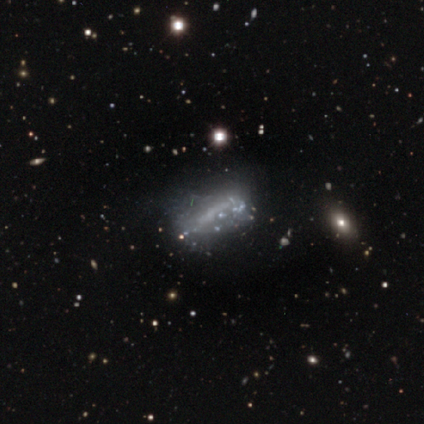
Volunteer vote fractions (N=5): Q: Smooth or featured?
A: featured or disk (60%); runner-up: smooth (20%)
Q: Edge-on disk?
A: no (100%)
Q: Bar?
A: no (67%); runner-up: strong (33%)
Q: Spiral arms?
A: no (67%); runner-up: yes (33%)
Q: Bulge size?
A: none (67%); runner-up: small (33%)
Q: Merging?
A: none (50%); runner-up: minor disturbance (25%)